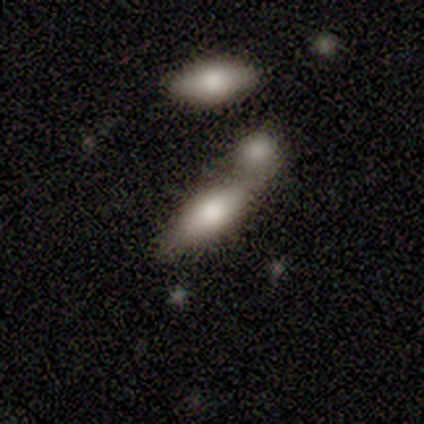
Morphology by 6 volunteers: smooth 67%, featured or disk 17%, star or artifact 17%. Down the decision tree: how rounded — in between (100%); merging — merger (60%).